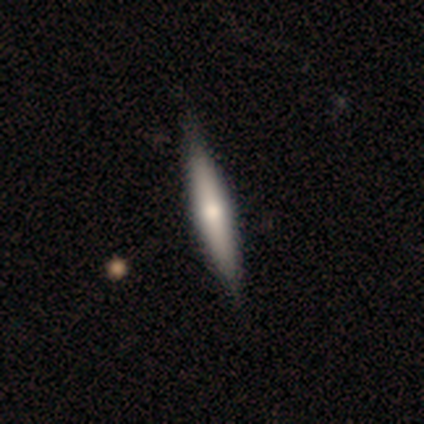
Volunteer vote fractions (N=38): A featured or disk galaxy (61%) viewed edge-on (96%) with a rounded central bulge (91%). Merging: none (49%).